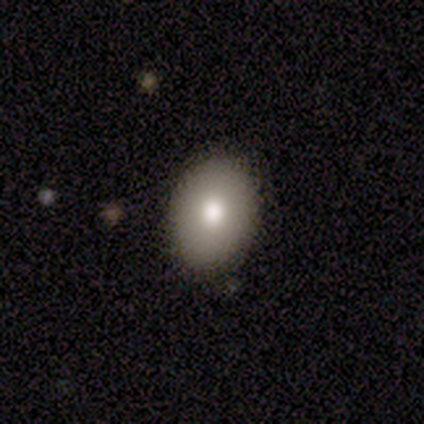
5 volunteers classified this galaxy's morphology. Overall: smooth (80%). How rounded: in between (100%). Merging: none (100%).